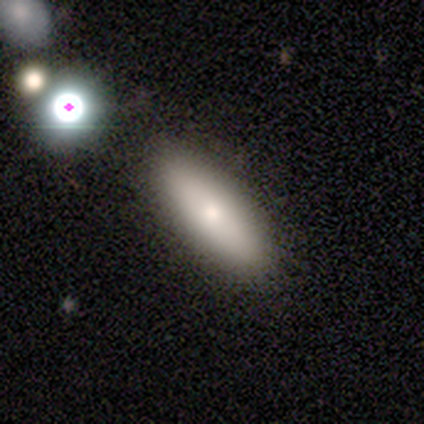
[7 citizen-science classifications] smooth 71%, featured or disk 14%, star or artifact 14%. Down the decision tree: how rounded — in between (60%); merging — none (100%).